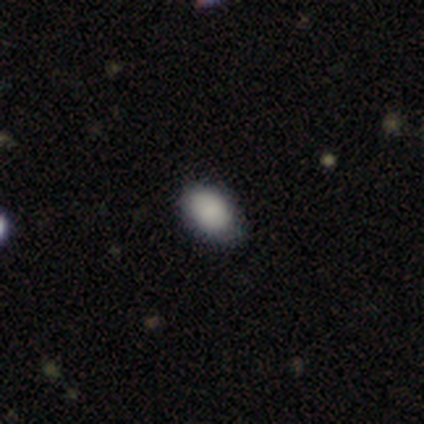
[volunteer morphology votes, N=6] This appears to be a smooth galaxy with no disk features (67%) that is in between round and cigar-shaped (100%). Merging: none (75%).